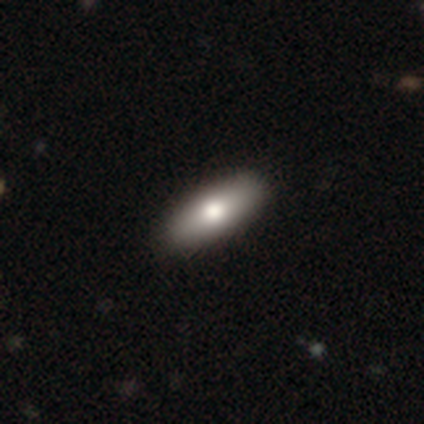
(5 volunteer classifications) Smooth or featured? smooth (80%)
How rounded? in between (75%)
Merging? none (100%)